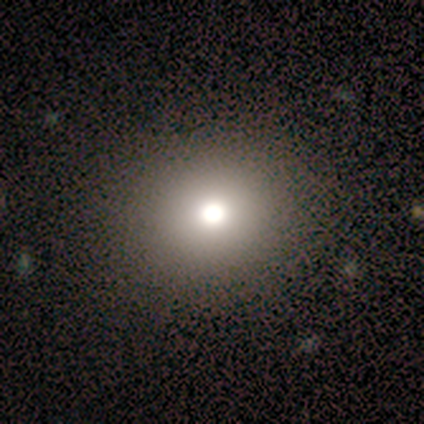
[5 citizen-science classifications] smooth 60%, star or artifact 40%, featured or disk 0%. Down the decision tree: how rounded — round (67%); merging — none (67%).